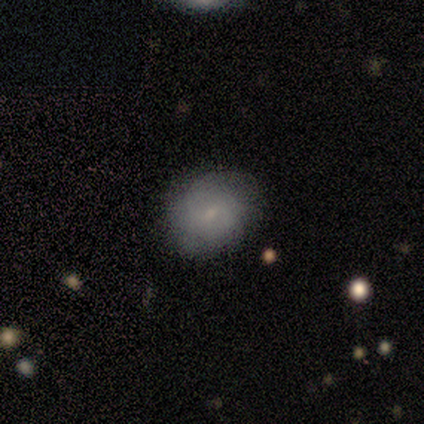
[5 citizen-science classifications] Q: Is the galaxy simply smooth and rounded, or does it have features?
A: smooth — 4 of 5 (80%).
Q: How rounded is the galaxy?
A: round — 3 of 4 (75%).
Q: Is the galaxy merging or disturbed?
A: none — 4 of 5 (80%).